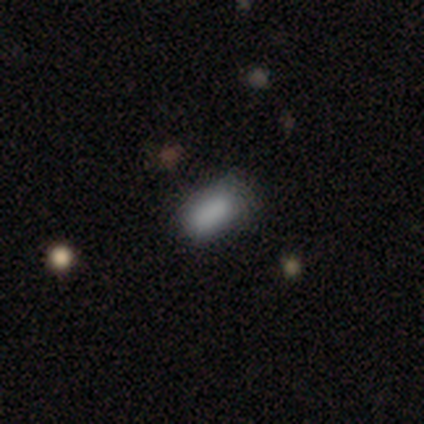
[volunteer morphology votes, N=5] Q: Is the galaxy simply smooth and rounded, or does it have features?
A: smooth — 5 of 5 (100%).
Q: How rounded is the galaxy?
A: in between — 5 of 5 (100%).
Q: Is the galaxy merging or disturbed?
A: none — 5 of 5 (100%).